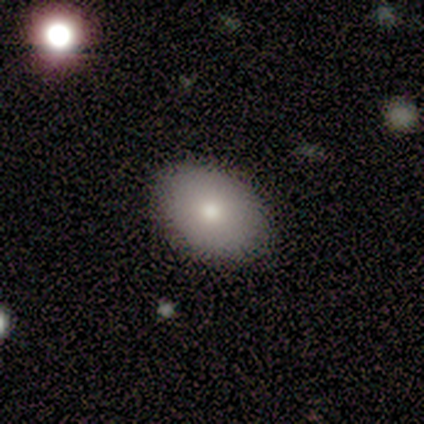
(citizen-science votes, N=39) smooth_or_featured: smooth (p=0.90) [alt: featured or disk p=0.10]
how_rounded: in between (p=0.80) [alt: round p=0.20]
merging: none (p=0.72) [alt: minor disturbance p=0.05]